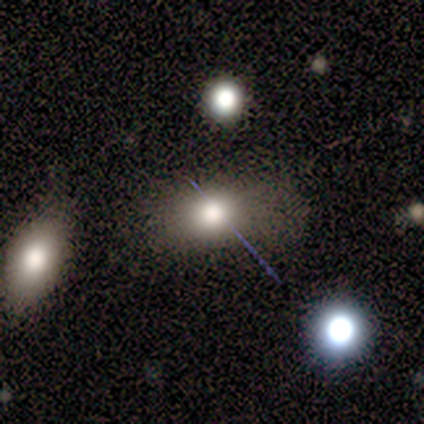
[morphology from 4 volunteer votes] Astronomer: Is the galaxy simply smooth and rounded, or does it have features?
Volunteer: smooth — 100%.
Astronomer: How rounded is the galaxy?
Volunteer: in between — 100%.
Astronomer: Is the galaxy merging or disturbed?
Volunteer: none — 50%, tied with minor disturbance at 50%.